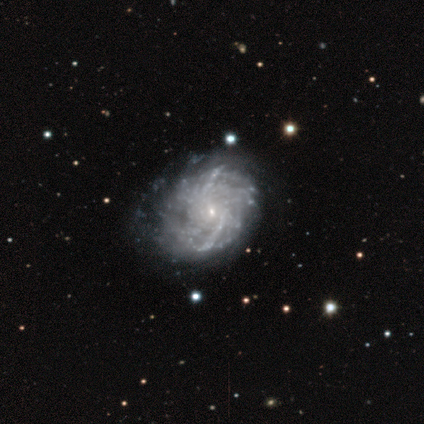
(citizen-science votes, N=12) This appears to be a featured or disk galaxy (92%) with no bar (82%), more than 4 (45%, tied with can't tell) tight (73%) spiral arms (100%) and a small central bulge (100%). Merging: none (36%, tied with minor disturbance).